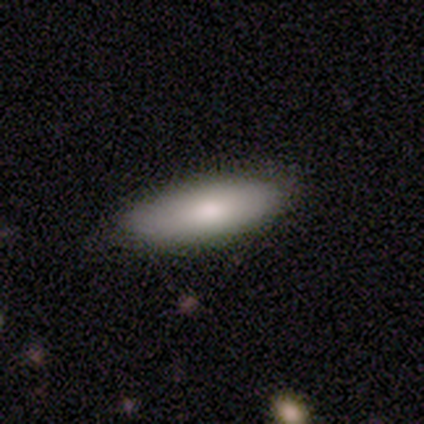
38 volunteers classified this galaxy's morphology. Smooth or featured? 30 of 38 (79%) said smooth. How rounded? 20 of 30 (67%) said in between. Merging? 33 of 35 (94%) said none.